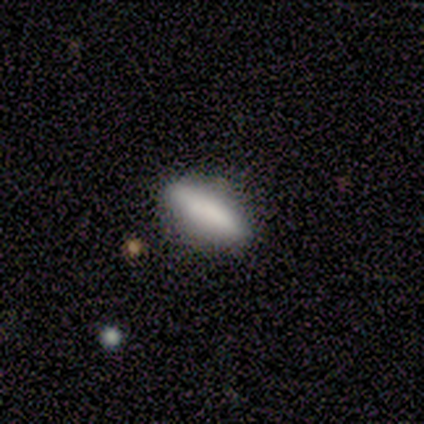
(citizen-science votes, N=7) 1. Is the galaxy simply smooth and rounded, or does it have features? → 100% smooth, 0% featured or disk, 0% star or artifact.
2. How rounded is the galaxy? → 57% in between, 43% cigar-shaped, 0% round.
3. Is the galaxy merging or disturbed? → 86% none, 14% minor disturbance, 0% major disturbance, 0% merger.